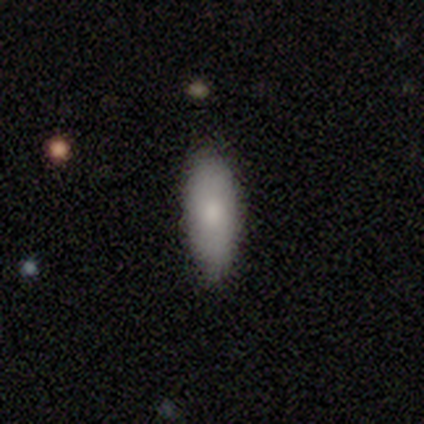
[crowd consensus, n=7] A smooth galaxy with no disk features (86%) that is in between round and cigar-shaped (67%). Merging: none (100%).